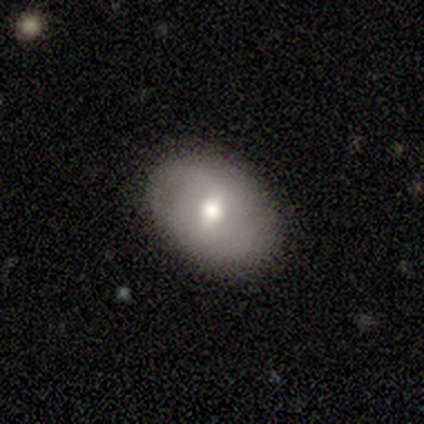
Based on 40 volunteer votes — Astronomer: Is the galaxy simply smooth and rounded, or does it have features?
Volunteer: smooth — 48%, tied with featured or disk at 48%.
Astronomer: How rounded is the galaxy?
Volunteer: in between — 84%.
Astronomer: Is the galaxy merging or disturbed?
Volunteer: none — 95%.